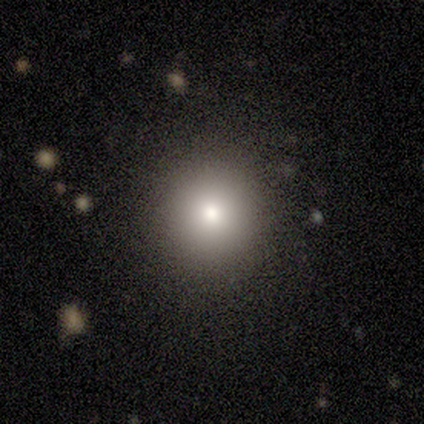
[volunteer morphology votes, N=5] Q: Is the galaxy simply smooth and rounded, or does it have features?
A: smooth — 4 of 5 (80%).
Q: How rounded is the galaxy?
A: round — 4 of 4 (100%).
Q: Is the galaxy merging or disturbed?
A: none — 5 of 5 (100%).